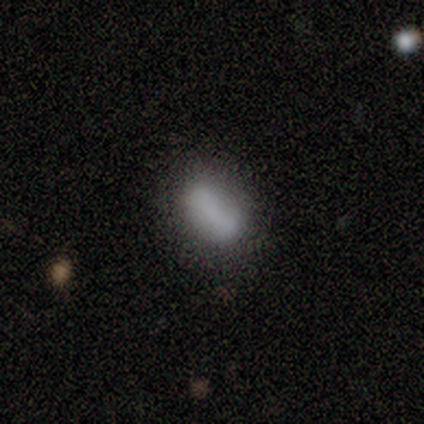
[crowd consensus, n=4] smooth 75%, featured or disk 25%, star or artifact 0%. Down the decision tree: how rounded — in between (67%); merging — none (75%).